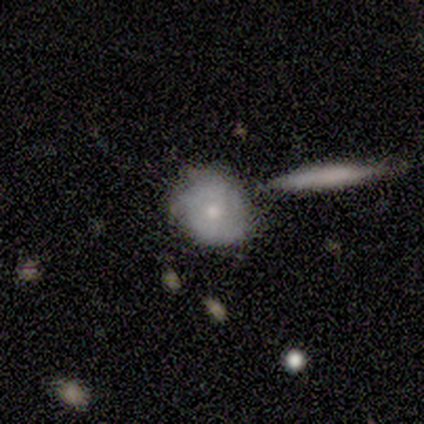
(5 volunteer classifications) A featured or disk galaxy (80%) with no bar (67%), no spiral arms (67%) and a small central bulge (67%). Merging: none (80%).